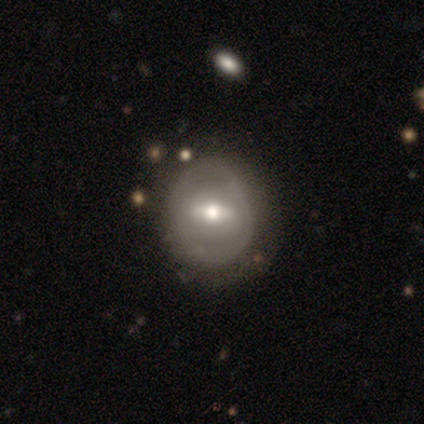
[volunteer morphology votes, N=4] Smooth or featured? 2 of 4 (50%) said featured or disk. Edge-on disk? 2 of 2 (100%) said no. Bar? 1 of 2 (50%, tied with no) said strong. Spiral arms? 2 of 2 (100%) said no. Bulge size? 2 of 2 (100%) said moderate. Merging? 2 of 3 (67%) said none.